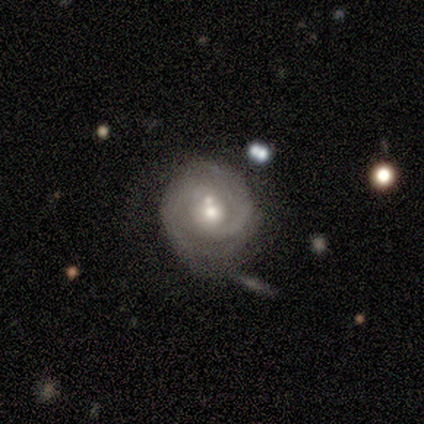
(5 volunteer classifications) A featured or disk galaxy (80%) with a weak bar (100%), 2 (75%) medium (75%) spiral arms (100%) and a moderate central bulge (50%, tied with small).

Vote fractions:
- Smooth or featured? featured or disk: 80% / smooth: 20% / star or artifact: 0%
- Edge-on disk? no: 100% / yes: 0%
- Bar? weak: 100% / strong: 0% / no: 0%
- Spiral arms? yes: 100% / no: 0%
- Spiral winding? medium: 75% / tight: 25% / loose: 0%
- Spiral arm count? 2: 75% / can't tell: 25% / 1: 0% / 3: 0% / 4: 0% / more than 4: 0%
- Bulge size? moderate: 50% (tied) / small: 50% (tied) / dominant: 0% / large: 0% / none: 0%
- Merging? none: 40% (tied) / merger: 40% (tied) / minor disturbance: 20% / major disturbance: 0%